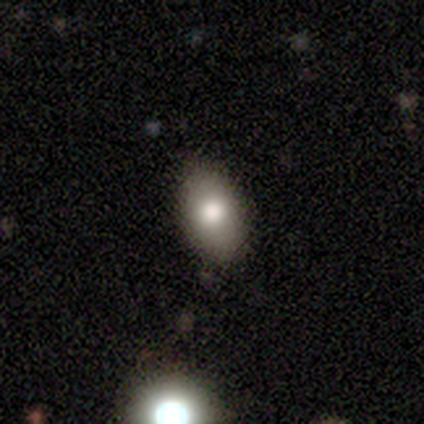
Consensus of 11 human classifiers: Smooth or featured? smooth (91%)
How rounded? in between (100%)
Merging? none (91%)